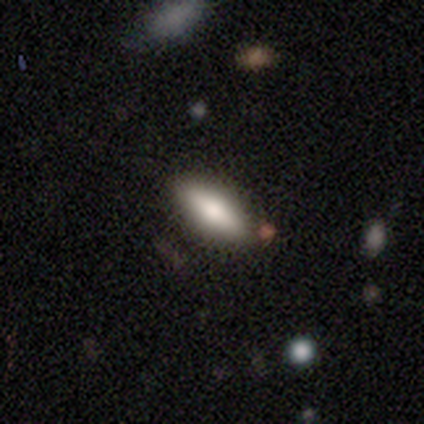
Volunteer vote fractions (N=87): Morphology: type=smooth (76%); roundness=in between (65%); merging=none (83%).